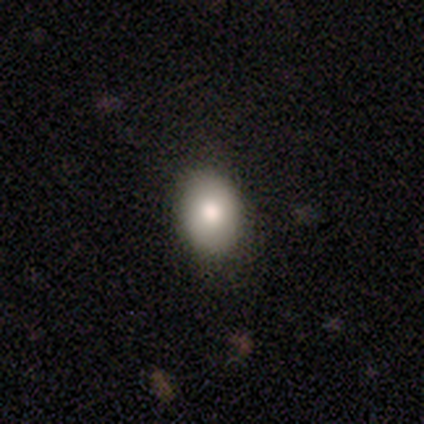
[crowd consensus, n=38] Overall: smooth (84%). How rounded: round (50%, tied with in between). Merging: none (82%).